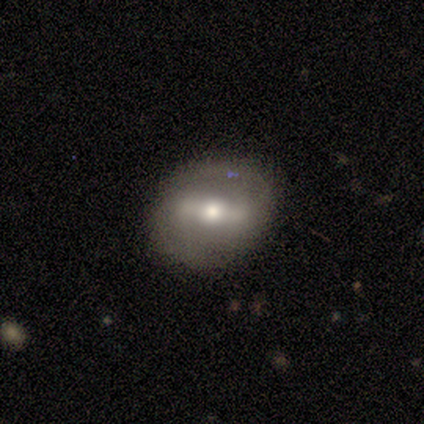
Smooth or featured? 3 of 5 (60%) said featured or disk. Edge-on disk? 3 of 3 (100%) said no. Bar? 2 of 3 (67%) said strong. Spiral arms? 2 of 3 (67%) said no. Bulge size? 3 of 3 (100%) said moderate. Merging? 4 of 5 (80%) said none.